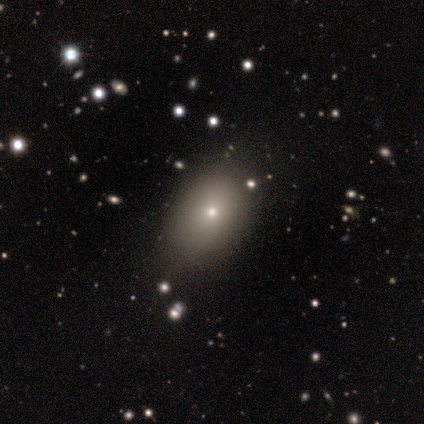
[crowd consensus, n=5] Morphology: type=featured or disk (60%); edge-on=no (100%); bar=no (100%); spiral arms=no (100%); bulge=moderate (67%); merging=none (67%).